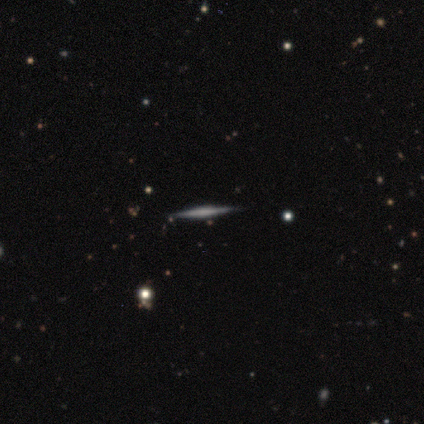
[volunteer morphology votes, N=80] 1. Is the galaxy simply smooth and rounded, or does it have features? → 72% featured or disk, 21% smooth, 6% star or artifact.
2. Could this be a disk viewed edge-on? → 97% yes, 3% no.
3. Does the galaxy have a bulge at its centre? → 52% none, 25% boxy, 23% rounded.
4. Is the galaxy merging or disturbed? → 52% none, 4% merger, 1% minor disturbance, 1% major disturbance.